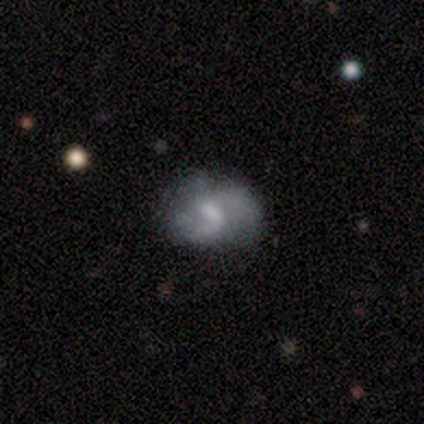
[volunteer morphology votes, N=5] A featured or disk galaxy (80%) with a weak bar (75%), 2 (75%) loose (100%) spiral arms (100%) and no central bulge (50%).

Vote fractions:
- Smooth or featured? featured or disk: 80% / star or artifact: 20% / smooth: 0%
- Edge-on disk? no: 100% / yes: 0%
- Bar? weak: 75% / no: 25% / strong: 0%
- Spiral arms? yes: 100% / no: 0%
- Spiral winding? loose: 100% / tight: 0% / medium: 0%
- Spiral arm count? 2: 75% / can't tell: 25% / 1: 0% / 3: 0% / 4: 0% / more than 4: 0%
- Bulge size? none: 50% / moderate: 25% / small: 25% / dominant: 0% / large: 0%
- Merging? none: 50% / minor disturbance: 25% / major disturbance: 25% / merger: 0%